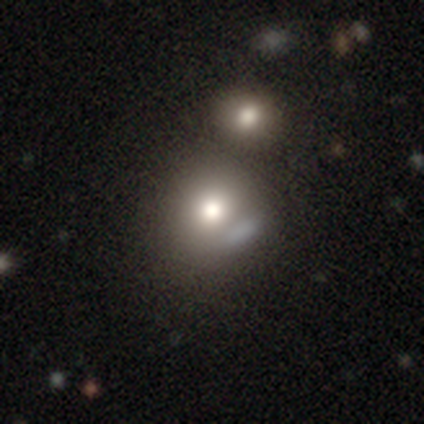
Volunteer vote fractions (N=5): smooth_or_featured: smooth (p=0.60) [alt: featured or disk p=0.40]
how_rounded: in between (p=0.67) [alt: round p=0.33]
merging: minor disturbance (p=0.40) [tied with: merger p=0.40]